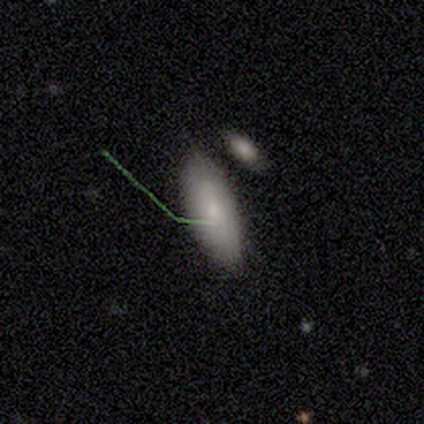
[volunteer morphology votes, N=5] Q: Smooth or featured?
A: smooth (100%)
Q: How rounded?
A: in between (80%); runner-up: cigar-shaped (20%)
Q: Merging?
A: none (60%); runner-up: minor disturbance (20%)